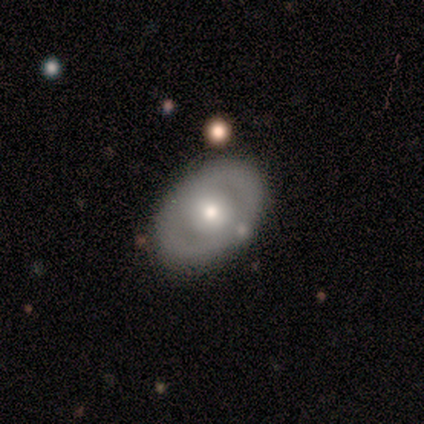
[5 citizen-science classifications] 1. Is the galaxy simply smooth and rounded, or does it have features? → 80% featured or disk, 20% smooth, 0% star or artifact.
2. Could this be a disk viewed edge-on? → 100% no, 0% yes.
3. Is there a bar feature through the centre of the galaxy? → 100% no, 0% strong, 0% weak.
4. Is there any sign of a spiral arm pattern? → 100% no, 0% yes.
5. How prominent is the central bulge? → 100% moderate, 0% dominant, 0% large, 0% small, 0% none.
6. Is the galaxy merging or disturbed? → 100% none, 0% minor disturbance, 0% major disturbance, 0% merger.